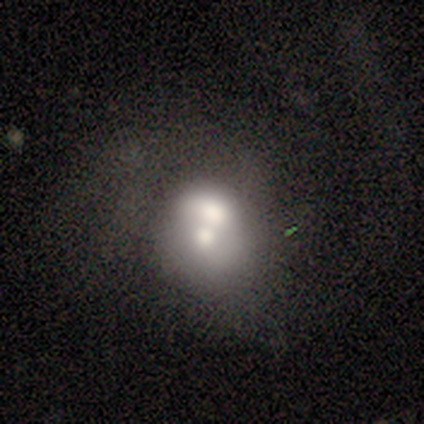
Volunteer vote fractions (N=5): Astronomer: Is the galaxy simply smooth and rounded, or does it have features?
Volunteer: featured or disk — 60% (runner-up: smooth, 40%).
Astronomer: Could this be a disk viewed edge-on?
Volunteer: no — 100%.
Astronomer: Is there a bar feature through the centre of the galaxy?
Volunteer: no — 100%.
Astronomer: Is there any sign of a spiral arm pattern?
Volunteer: no — 100%.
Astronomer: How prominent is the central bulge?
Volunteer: large — 67%.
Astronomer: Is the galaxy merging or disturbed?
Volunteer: merger — 60% (runner-up: none, 40%).